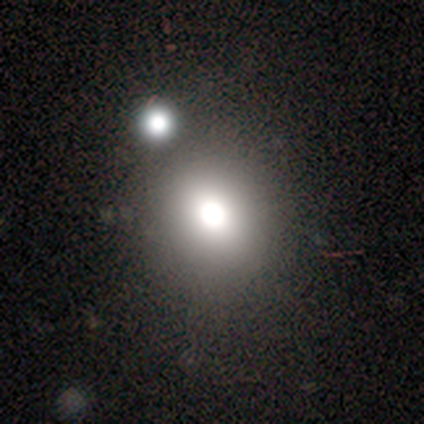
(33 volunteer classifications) smooth_or_featured: smooth (p=0.67) [alt: star or artifact p=0.33]
how_rounded: round (p=0.64) [alt: in between p=0.36]
merging: merger (p=0.45) [alt: none p=0.14]